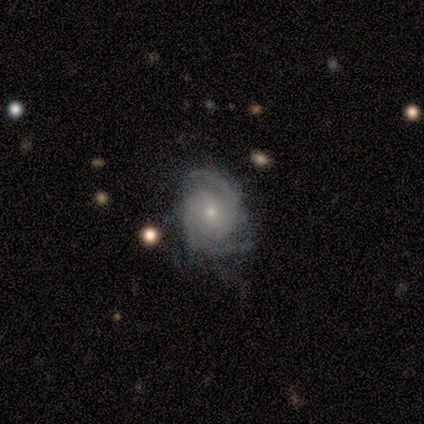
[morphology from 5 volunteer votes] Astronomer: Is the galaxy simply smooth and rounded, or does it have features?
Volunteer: featured or disk — 80%.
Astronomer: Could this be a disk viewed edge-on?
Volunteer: no — 100%.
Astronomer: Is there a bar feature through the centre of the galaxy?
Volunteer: no — 75%.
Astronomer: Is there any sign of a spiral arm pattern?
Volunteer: yes — 100%.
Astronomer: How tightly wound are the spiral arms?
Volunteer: tight — 50%, tied with medium at 50%.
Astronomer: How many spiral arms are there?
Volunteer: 2 — 75%.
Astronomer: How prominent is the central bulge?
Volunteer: moderate — 50%, tied with small at 50%.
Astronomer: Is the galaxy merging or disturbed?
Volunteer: none — 60% (runner-up: minor disturbance, 40%).